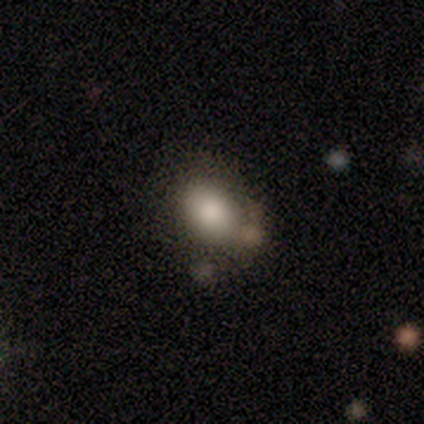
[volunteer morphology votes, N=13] Smooth or featured? 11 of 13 (85%) said smooth. How rounded? 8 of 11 (73%) said in between. Merging? 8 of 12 (67%) said none.